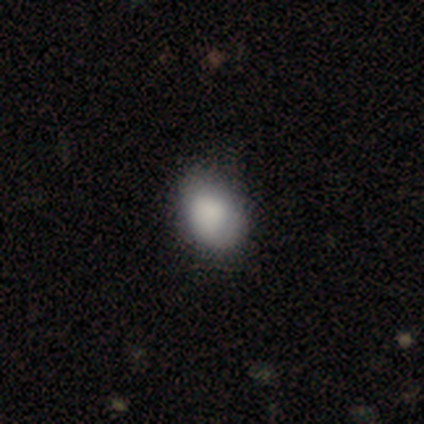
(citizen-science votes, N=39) Volunteers were most divided on "merging": none: 76%, minor disturbance: 22%, major disturbance: 3%, merger: 0%. More confident: smooth or featured — smooth (85%); how rounded — in between (76%).